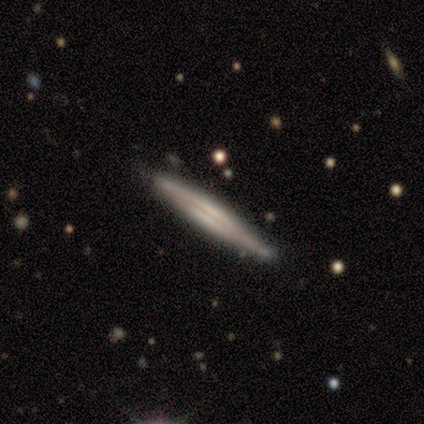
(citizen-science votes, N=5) Smooth or featured?
  - featured or disk: 80% *
  - smooth: 20%
  - star or artifact: 0%
Edge-on disk?
  - yes: 100% *
  - no: 0%
Edge-on bulge?
  - boxy: 50% *
  - none: 25%
  - rounded: 25%
Merging?
  - none: 80% *
  - minor disturbance: 20%
  - major disturbance: 0%
  - merger: 0%